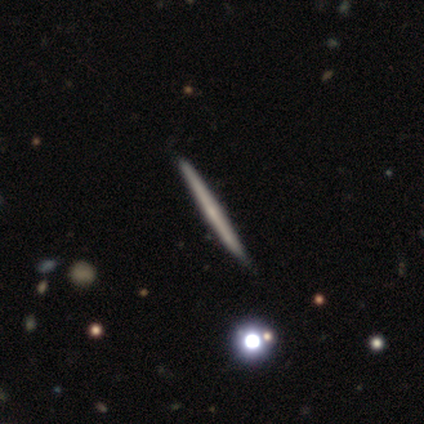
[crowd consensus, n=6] Morphology: type=featured or disk (67%); edge-on=yes (100%); edge-on bulge=none (75%); merging=none (100%).